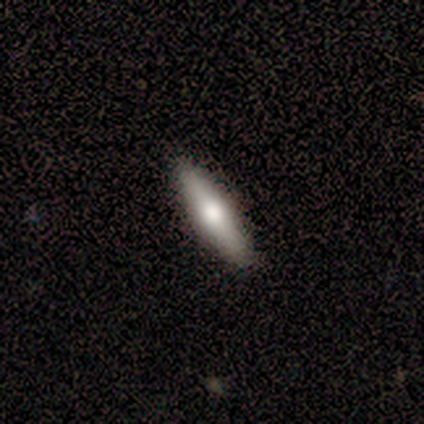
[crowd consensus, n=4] Q: Smooth or featured?
A: smooth (75%); runner-up: featured or disk (25%)
Q: How rounded?
A: cigar-shaped (100%)
Q: Merging?
A: none (100%)